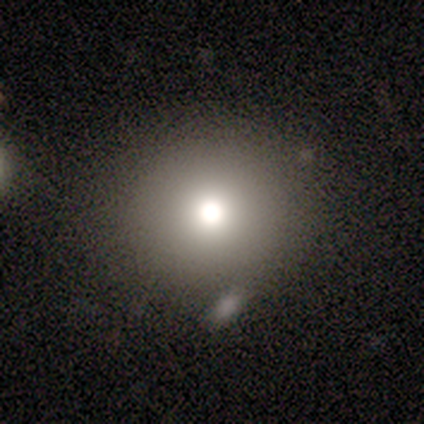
A smooth galaxy with no disk features (80%) that is round (100%). Merging: none (75%).